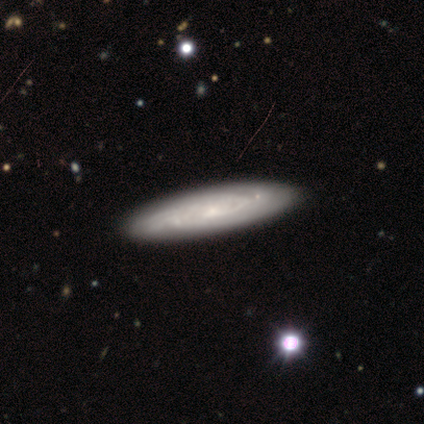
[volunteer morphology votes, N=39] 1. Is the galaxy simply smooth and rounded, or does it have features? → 90% featured or disk, 10% smooth, 0% star or artifact.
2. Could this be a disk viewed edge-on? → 66% no, 34% yes.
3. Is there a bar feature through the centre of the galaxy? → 70% no, 30% weak, 0% strong.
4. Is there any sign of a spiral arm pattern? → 100% yes, 0% no.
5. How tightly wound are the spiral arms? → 70% tight, 30% medium, 0% loose.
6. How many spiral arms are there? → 78% can't tell, 13% 2, 4% 1, 4% 4, 0% 3, 0% more than 4.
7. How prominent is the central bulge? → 70% small, 17% none, 9% moderate, 4% large, 0% dominant.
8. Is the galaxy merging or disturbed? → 56% none, 5% minor disturbance, 5% merger, 3% major disturbance.